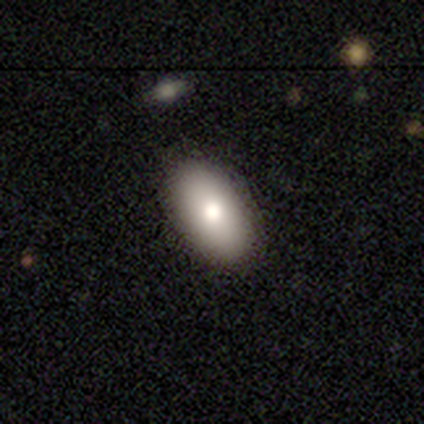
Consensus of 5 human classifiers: Smooth or featured? 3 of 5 (60%) said smooth. How rounded? 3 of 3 (100%) said in between. Merging? 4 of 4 (100%) said none.